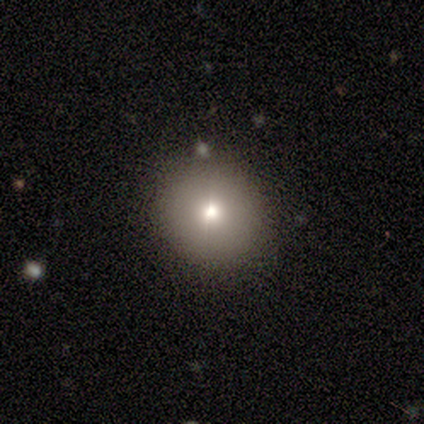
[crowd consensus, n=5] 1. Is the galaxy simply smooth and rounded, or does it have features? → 100% smooth, 0% featured or disk, 0% star or artifact.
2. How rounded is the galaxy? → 80% round, 20% in between, 0% cigar-shaped.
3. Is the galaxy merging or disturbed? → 100% none, 0% minor disturbance, 0% major disturbance, 0% merger.